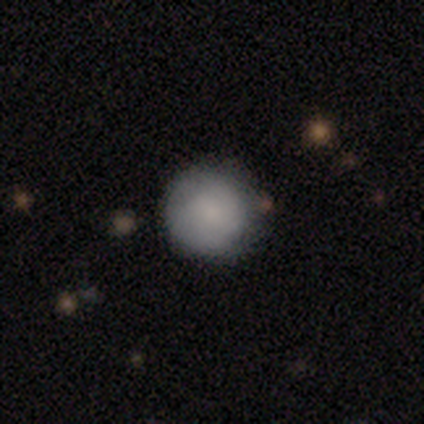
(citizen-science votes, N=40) This is clearly a smooth galaxy (90%). How rounded: clearly round (100%). Merging: clearly none (82%).